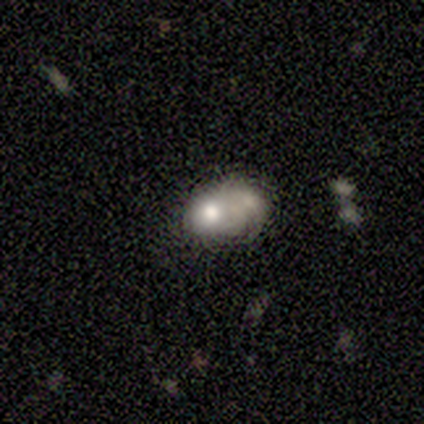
This is clearly a star or artifact rather than a galaxy (80%).